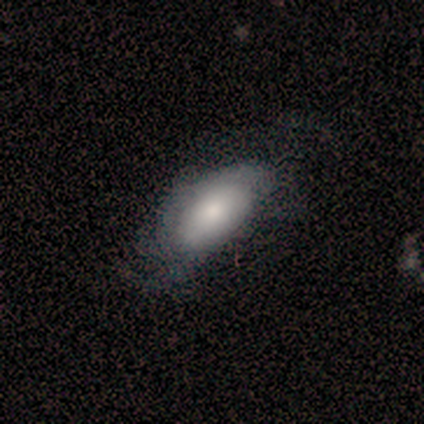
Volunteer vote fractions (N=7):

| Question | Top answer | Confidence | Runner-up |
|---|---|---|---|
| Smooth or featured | smooth | 71% | featured or disk (14%) |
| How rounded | in between | 80% | cigar-shaped (20%) |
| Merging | major disturbance | 50% | none (33%) |